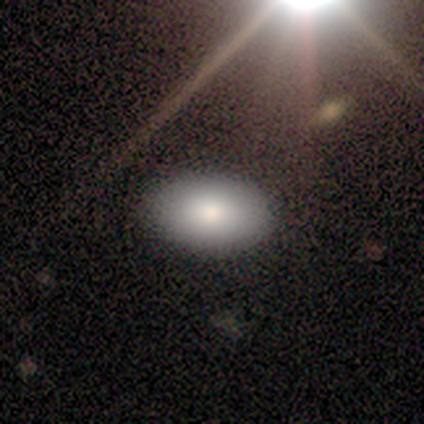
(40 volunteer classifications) A smooth galaxy with no disk features (75%) that is in between round and cigar-shaped (87%).

Vote fractions:
- Smooth or featured? smooth: 75% / featured or disk: 12% / star or artifact: 12%
- How rounded? in between: 87% / round: 13% / cigar-shaped: 0%
- Merging? none: 94% / minor disturbance: 6% / major disturbance: 0% / merger: 0%